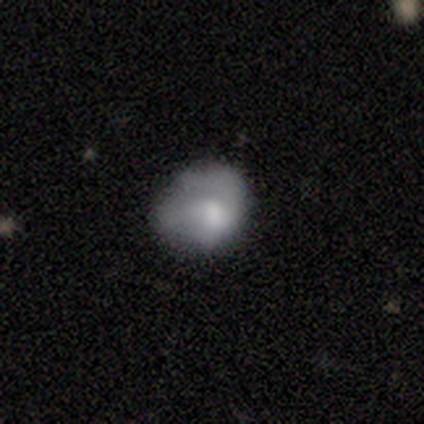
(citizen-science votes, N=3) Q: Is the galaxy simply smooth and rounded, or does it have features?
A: smooth — 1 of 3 (33%, tied with featured or disk and star or artifact).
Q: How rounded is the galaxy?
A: round — 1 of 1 (100%).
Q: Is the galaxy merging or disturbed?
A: none — 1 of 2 (50%, tied with major disturbance).